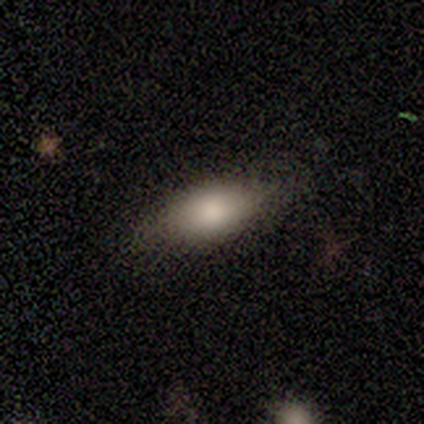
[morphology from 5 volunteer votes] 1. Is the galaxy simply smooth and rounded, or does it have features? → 60% smooth, 20% featured or disk, 20% star or artifact.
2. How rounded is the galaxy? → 100% in between, 0% round, 0% cigar-shaped.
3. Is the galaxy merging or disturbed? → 75% none, 25% minor disturbance, 0% major disturbance, 0% merger.